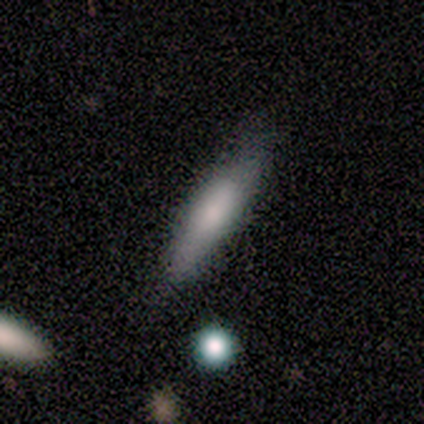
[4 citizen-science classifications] Smooth or featured: smooth — 100%
How rounded: cigar-shaped — 75% (in between — 25%)
Merging: none — 75% (minor disturbance — 25%)